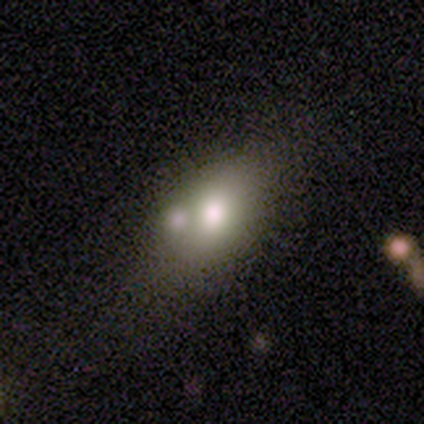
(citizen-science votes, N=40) Smooth or featured? 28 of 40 (70%) said smooth. How rounded? 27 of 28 (96%) said in between. Merging? 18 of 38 (47%) said none.